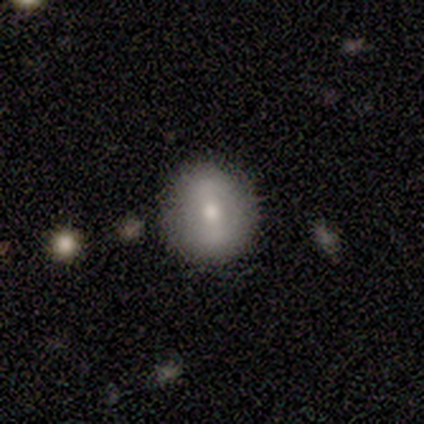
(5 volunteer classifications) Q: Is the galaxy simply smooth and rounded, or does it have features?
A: smooth — 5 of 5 (100%).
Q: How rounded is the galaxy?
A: round — 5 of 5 (100%).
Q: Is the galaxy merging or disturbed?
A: none — 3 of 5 (60%).